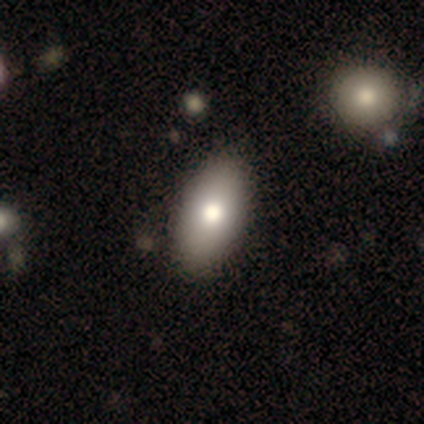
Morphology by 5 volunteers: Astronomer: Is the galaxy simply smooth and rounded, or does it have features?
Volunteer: smooth — 60% (runner-up: featured or disk, 40%).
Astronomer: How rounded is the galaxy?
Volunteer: in between — 100%.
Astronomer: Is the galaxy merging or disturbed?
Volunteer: none — 100%.